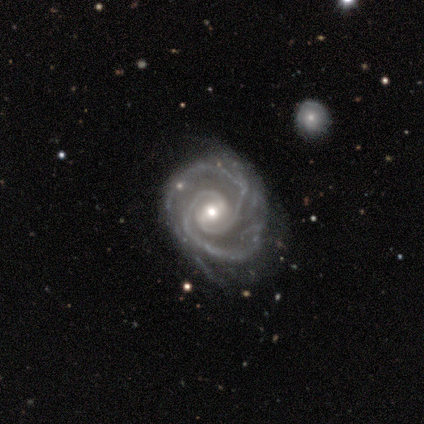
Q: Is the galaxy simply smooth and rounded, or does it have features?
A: featured or disk — 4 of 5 (80%).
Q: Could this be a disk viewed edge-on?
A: no — 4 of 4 (100%).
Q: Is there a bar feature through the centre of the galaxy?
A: no — 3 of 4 (75%).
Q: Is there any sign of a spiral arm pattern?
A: yes — 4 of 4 (100%).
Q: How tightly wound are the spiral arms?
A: tight — 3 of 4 (75%).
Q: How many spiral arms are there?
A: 2 — 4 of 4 (100%).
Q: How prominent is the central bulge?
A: moderate — 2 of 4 (50%).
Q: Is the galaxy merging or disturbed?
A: none — 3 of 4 (75%).